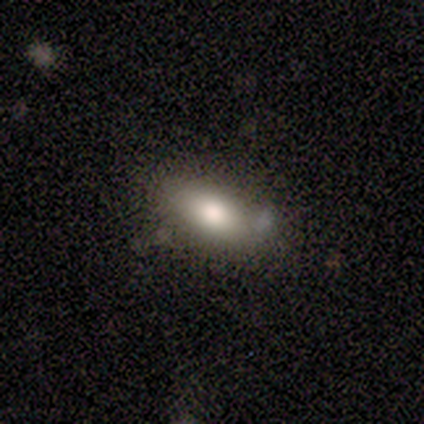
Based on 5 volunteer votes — Morphology: type=smooth (80%); roundness=in between (75%); merging=none (60%).